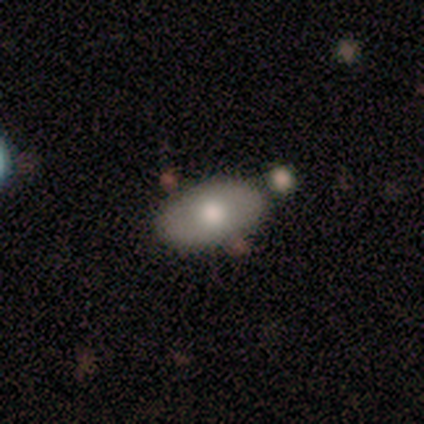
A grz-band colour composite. It shows a smooth galaxy with no disk features (80%) that is in between round and cigar-shaped (100%). Merging: none (80%).